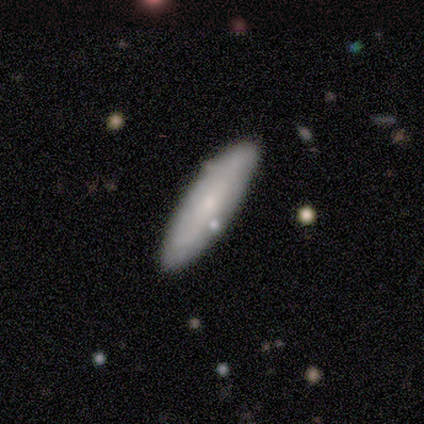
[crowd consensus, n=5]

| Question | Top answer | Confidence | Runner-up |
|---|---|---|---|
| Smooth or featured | featured or disk | 60% | smooth (40%) |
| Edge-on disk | no | 67% | yes (33%) |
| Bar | no | 100% | — |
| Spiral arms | no | 100% | — |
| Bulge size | moderate | 50% | tied: small (50%) |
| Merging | none | 60% | merger (40%) |